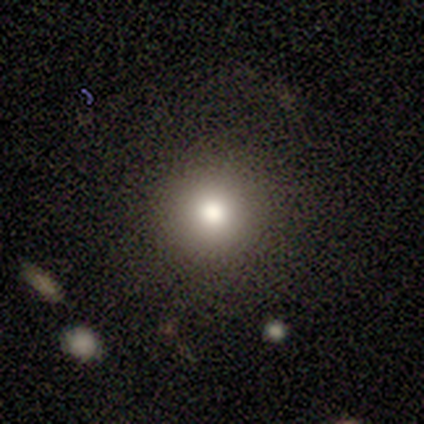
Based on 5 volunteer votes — A smooth galaxy with no disk features (100%) that is round (100%).

Vote fractions:
- Smooth or featured? smooth: 100% / featured or disk: 0% / star or artifact: 0%
- How rounded? round: 100% / in between: 0% / cigar-shaped: 0%
- Merging? none: 80% / major disturbance: 20% / minor disturbance: 0% / merger: 0%